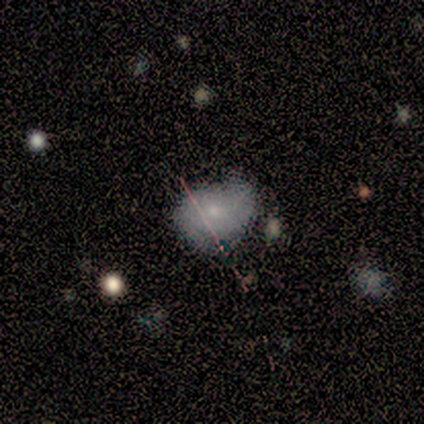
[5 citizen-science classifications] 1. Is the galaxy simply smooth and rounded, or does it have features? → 40% smooth (tied), 40% featured or disk (tied), 20% star or artifact.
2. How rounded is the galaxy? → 100% in between, 0% round, 0% cigar-shaped.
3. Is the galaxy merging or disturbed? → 50% minor disturbance, 25% major disturbance, 25% merger, 0% none.